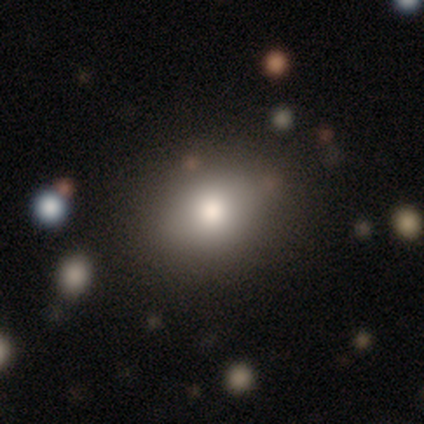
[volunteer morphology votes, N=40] type=smooth (72%); roundness=round (48%, tied with in between); merging=none (82%).